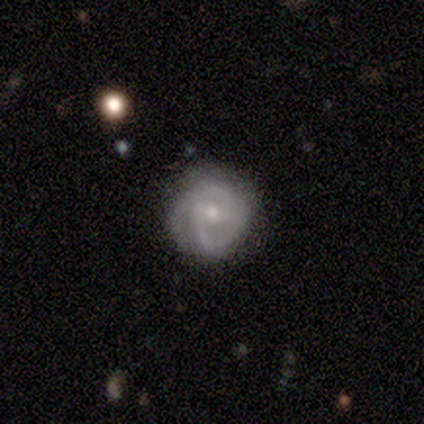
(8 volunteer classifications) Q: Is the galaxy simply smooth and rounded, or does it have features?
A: featured or disk — 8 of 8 (100%).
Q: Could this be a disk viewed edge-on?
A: no — 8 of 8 (100%).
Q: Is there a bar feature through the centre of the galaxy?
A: strong — 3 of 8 (38%, tied with no).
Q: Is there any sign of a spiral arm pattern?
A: yes — 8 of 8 (100%).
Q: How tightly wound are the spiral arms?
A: medium — 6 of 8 (75%).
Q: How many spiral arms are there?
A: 2 — 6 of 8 (75%).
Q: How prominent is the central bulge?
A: small — 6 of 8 (75%).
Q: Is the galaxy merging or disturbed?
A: none — 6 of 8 (75%).